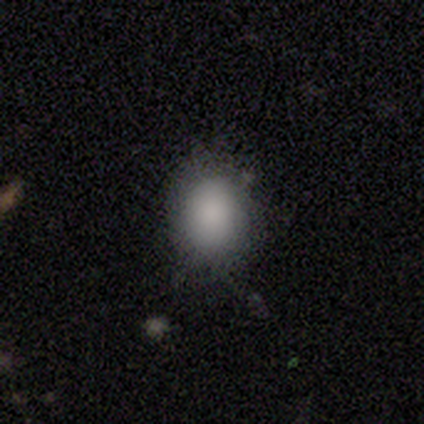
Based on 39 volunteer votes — Smooth or featured: smooth — 87% (star or artifact — 13%)
How rounded: in between — 62% (round — 38%)
Merging: none — 85% (minor disturbance — 9%)